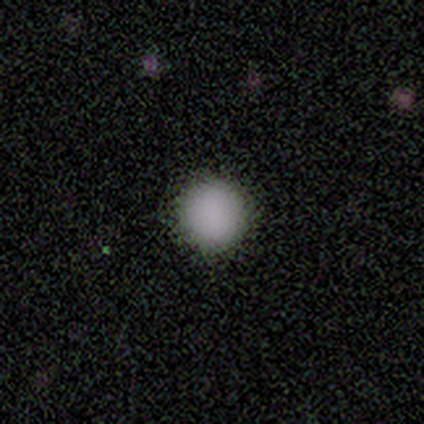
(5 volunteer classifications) Smooth or featured? 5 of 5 (100%) said smooth. How rounded? 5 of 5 (100%) said round. Merging? 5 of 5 (100%) said none.